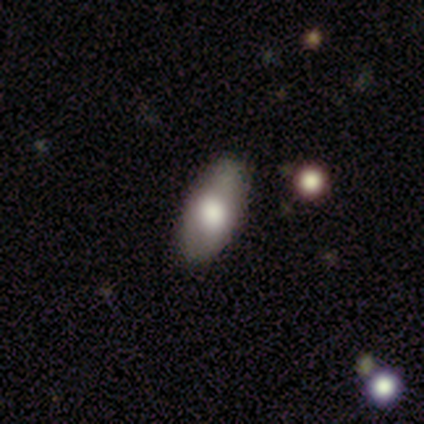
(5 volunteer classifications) This is likely a smooth galaxy (60%). How rounded: clearly in between (100%). Merging: likely none (67%).